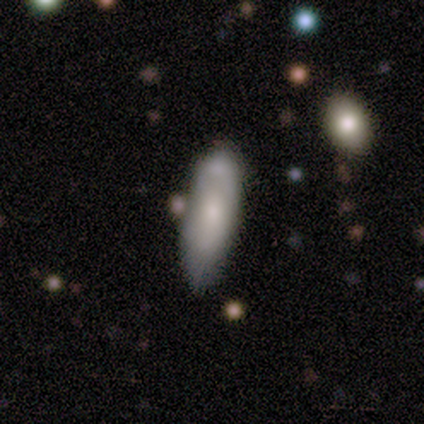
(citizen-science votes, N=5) Smooth or featured? featured or disk (60%)
Edge-on disk? no (100%)
Bar? no (67%)
Spiral arms? no (67%)
Bulge size? moderate (67%)
Merging? none (60%)